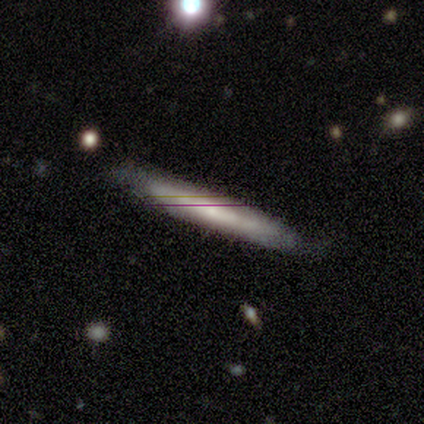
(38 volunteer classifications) Smooth or featured?
  - featured or disk: 47% *
  - smooth: 42%
  - star or artifact: 11%
Edge-on disk?
  - yes: 67% *
  - no: 33%
Edge-on bulge?
  - none: 58% *
  - rounded: 42%
  - boxy: 0%
Merging?
  - none: 68% *
  - minor disturbance: 26%
  - major disturbance: 6%
  - merger: 0%